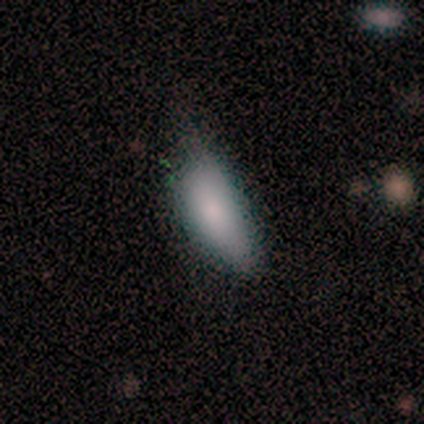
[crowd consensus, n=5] smooth-or-featured: smooth: 100% | featured or disk: 0% | star or artifact: 0%
  how-rounded: in between: 100% | round: 0% | cigar-shaped: 0%
  merging: none: 40% (tied) | minor disturbance: 40% (tied) | major disturbance: 20% | merger: 0%